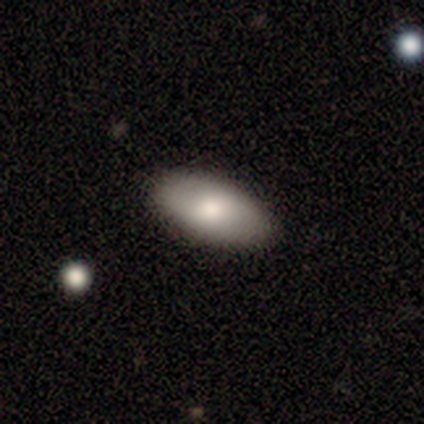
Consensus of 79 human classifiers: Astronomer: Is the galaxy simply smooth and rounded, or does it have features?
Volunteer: smooth — 76%.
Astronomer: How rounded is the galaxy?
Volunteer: in between — 97%.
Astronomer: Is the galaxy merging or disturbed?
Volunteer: none — 54%.